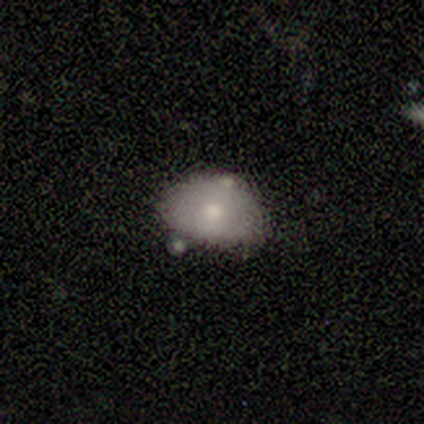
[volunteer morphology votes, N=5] A smooth galaxy with no disk features (80%) that is in between round and cigar-shaped (100%).

Vote fractions:
- Smooth or featured? smooth: 80% / featured or disk: 20% / star or artifact: 0%
- How rounded? in between: 100% / round: 0% / cigar-shaped: 0%
- Merging? none: 60% / minor disturbance: 20% / major disturbance: 20% / merger: 0%